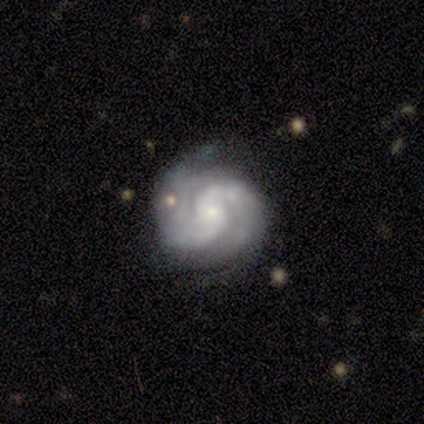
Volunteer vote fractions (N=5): smooth-or-featured: featured or disk: 100% | smooth: 0% | star or artifact: 0%
  disk-edge-on: no: 100% | yes: 0%
    bar: strong: 40% (tied) | no: 40% (tied) | weak: 20%
    has-spiral-arms: yes: 100% | no: 0%
      spiral-winding: tight: 60% | loose: 40% | medium: 0%
      spiral-arm-count: 2: 80% | 3: 20% | 1: 0% | 4: 0% | more than 4: 0% | can't tell: 0%
    bulge-size: small: 60% | moderate: 40% | dominant: 0% | large: 0% | none: 0%
  merging: none: 60% | minor disturbance: 40% | major disturbance: 0% | merger: 0%